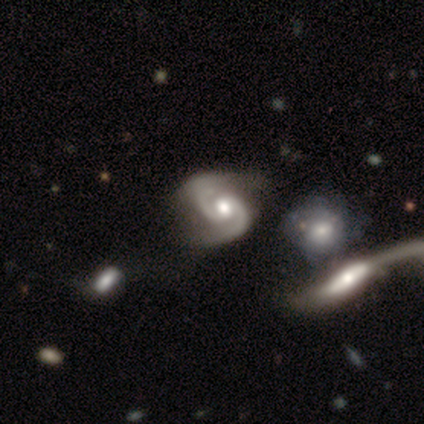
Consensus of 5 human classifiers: Smooth or featured?
  - featured or disk: 60% *
  - smooth: 20%
  - star or artifact: 20%
Edge-on disk?
  - no: 100% *
  - yes: 0%
Bar?
  - no: 100% *
  - strong: 0%
  - weak: 0%
Spiral arms?
  - yes: 100% *
  - no: 0%
Spiral winding?
  - tight: 67% *
  - medium: 33%
  - loose: 0%
Spiral arm count?
  - 2: 100% *
  - 1: 0%
  - 3: 0%
  - 4: 0%
  - more than 4: 0%
  - can't tell: 0%
Bulge size?
  - moderate: 100% *
  - dominant: 0%
  - large: 0%
  - small: 0%
  - none: 0%
Merging?
  - minor disturbance: 75% *
  - none: 25%
  - major disturbance: 0%
  - merger: 0%